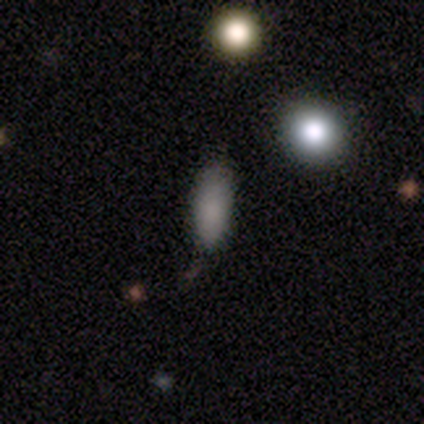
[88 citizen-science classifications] Overall: smooth (81%). How rounded: in between (75%). Merging: none (63%; minor disturbance 27%).